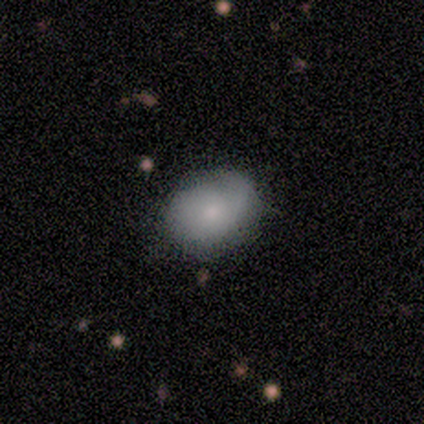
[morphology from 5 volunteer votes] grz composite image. It shows a smooth galaxy with no disk features (80%) that is round (75%). Merging: none (100%).